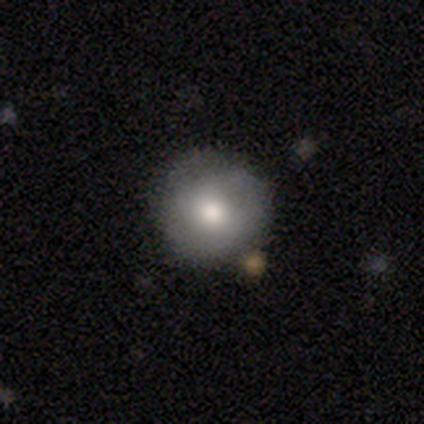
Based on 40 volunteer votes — smooth_or_featured: smooth (p=0.65) [alt: featured or disk p=0.33]
how_rounded: round (p=1.00)
merging: none (p=0.64) [alt: minor disturbance p=0.15]